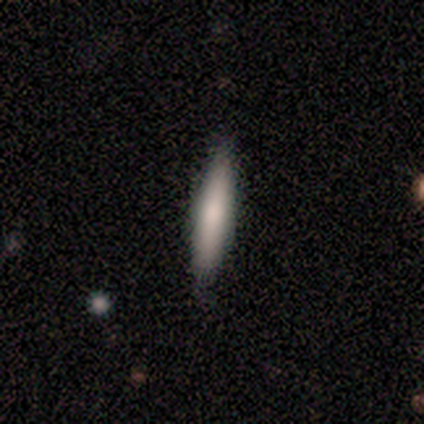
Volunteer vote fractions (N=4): This is clearly a smooth galaxy (100%). How rounded: possibly in between (50%, tied with cigar-shaped). Merging: likely none (75%).